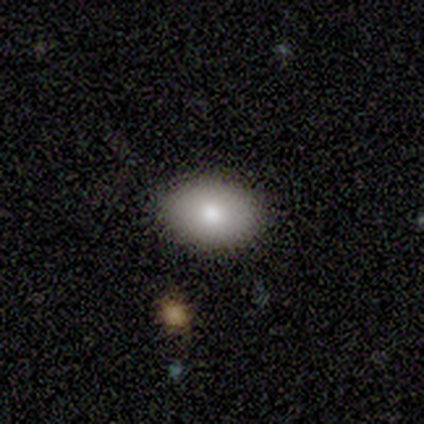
Overall: smooth (100%). How rounded: in between (100%). Merging: none (100%).